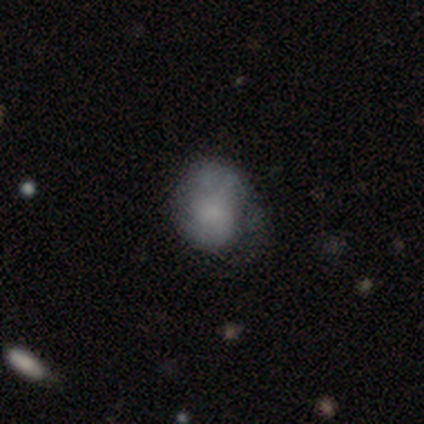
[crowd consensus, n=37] smooth_or_featured: smooth (p=0.68) [alt: featured or disk p=0.27]
how_rounded: in between (p=0.64) [alt: round p=0.36]
merging: none (p=0.51) [alt: minor disturbance p=0.26]